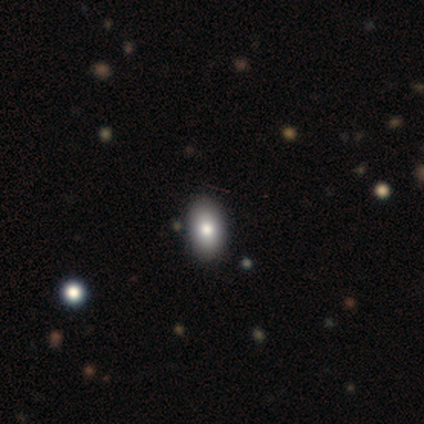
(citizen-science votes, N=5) This appears to be a smooth galaxy with no disk features (100%) that is in between round and cigar-shaped (100%). Merging: none (100%).